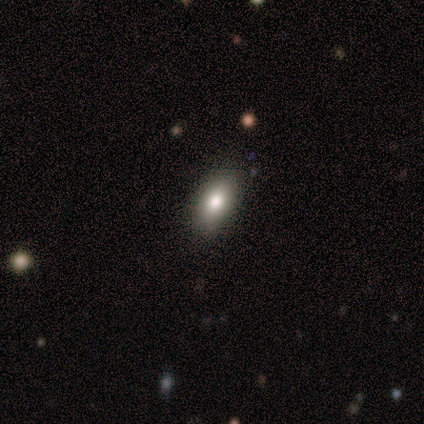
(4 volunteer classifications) Smooth or featured? 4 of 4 (100%) said smooth. How rounded? 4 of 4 (100%) said in between. Merging? 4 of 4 (100%) said none.